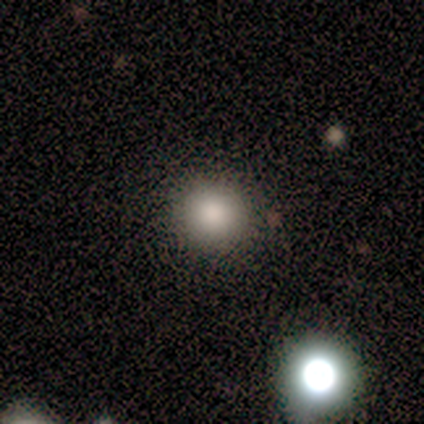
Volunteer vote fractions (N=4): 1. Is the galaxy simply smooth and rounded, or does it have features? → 100% smooth, 0% featured or disk, 0% star or artifact.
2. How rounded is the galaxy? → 100% round, 0% in between, 0% cigar-shaped.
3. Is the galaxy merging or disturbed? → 75% none, 25% major disturbance, 0% minor disturbance, 0% merger.